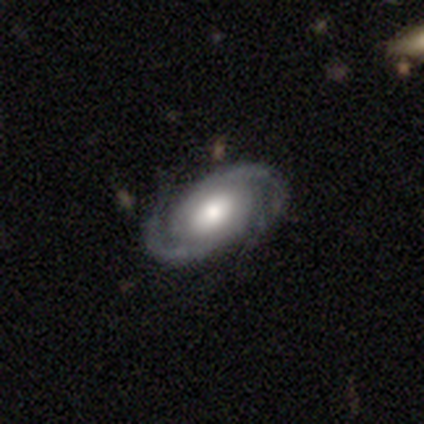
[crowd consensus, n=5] Smooth or featured? 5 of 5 (100%) said featured or disk. Edge-on disk? 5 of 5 (100%) said no. Bar? 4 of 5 (80%) said no. Spiral arms? 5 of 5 (100%) said yes. Spiral winding? 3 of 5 (60%) said medium. Spiral arm count? 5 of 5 (100%) said 2. Bulge size? 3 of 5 (60%) said moderate. Merging? 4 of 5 (80%) said none.